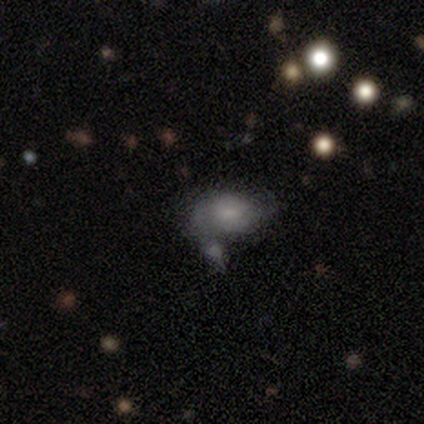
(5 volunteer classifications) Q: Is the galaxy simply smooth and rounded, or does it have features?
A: smooth — 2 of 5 (40%, tied with star or artifact).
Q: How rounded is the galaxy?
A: in between — 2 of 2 (100%).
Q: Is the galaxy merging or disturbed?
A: none — 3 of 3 (100%).